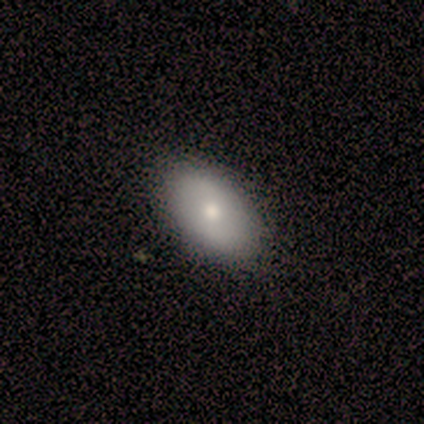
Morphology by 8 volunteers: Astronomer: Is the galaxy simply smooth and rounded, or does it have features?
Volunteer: smooth — 88%.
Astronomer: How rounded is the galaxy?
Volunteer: in between — 86%.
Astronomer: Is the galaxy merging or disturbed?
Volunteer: none — 100%.